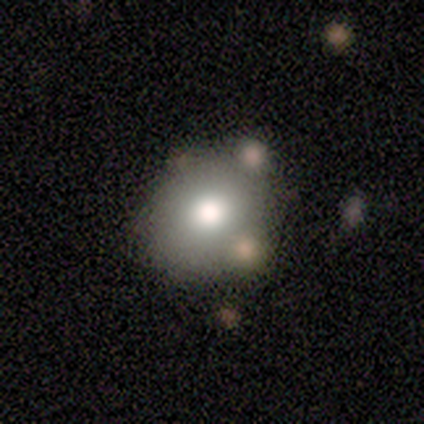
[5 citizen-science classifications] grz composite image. It shows a smooth galaxy with no disk features (80%) that is round (75%). Merging: none (80%).